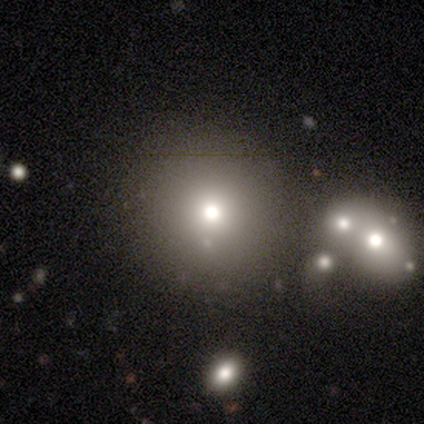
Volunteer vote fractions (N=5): A smooth galaxy with no disk features (80%) that is round (100%).

Vote fractions:
- Smooth or featured? smooth: 80% / featured or disk: 20% / star or artifact: 0%
- How rounded? round: 100% / in between: 0% / cigar-shaped: 0%
- Merging? none: 80% / minor disturbance: 20% / major disturbance: 0% / merger: 0%